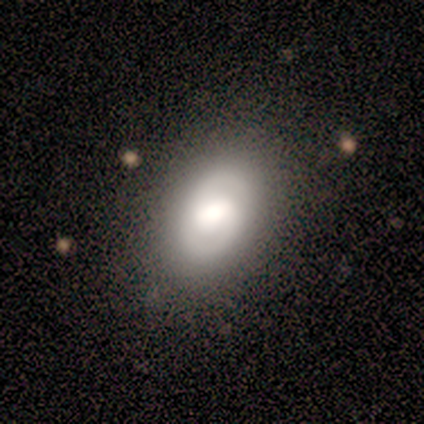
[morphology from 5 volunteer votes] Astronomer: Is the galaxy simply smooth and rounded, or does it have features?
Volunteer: smooth — 40%, tied with featured or disk at 40%.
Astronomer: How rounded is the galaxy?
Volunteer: in between — 100%.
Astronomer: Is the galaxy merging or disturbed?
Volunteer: none — 75%.